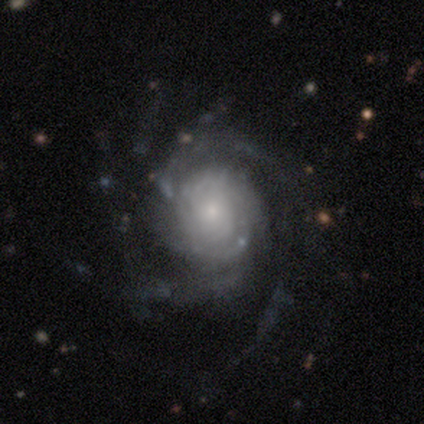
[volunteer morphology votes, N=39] type=featured or disk (92%); edge-on=no (100%); bar=no (83%); spiral arms=yes (97%); winding=tight (60%); arm count=more than 4 (31%, tied with can't tell); bulge=small (56%); merging=none (84%).